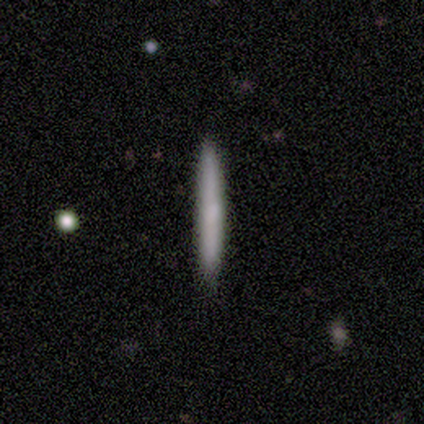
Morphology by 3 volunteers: smooth 100%, featured or disk 0%, star or artifact 0%. Down the decision tree: how rounded — cigar-shaped (100%); merging — none (100%).